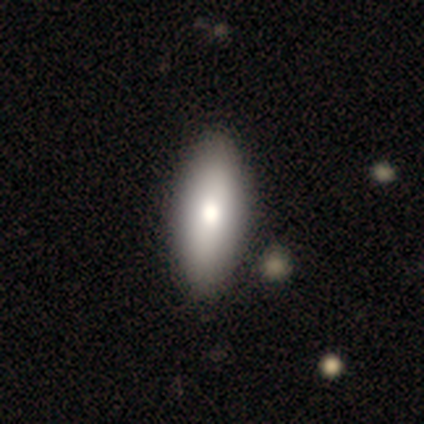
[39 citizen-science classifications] Smooth or featured? 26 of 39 (67%) said smooth. How rounded? 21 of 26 (81%) said in between. Merging? 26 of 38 (68%) said none.